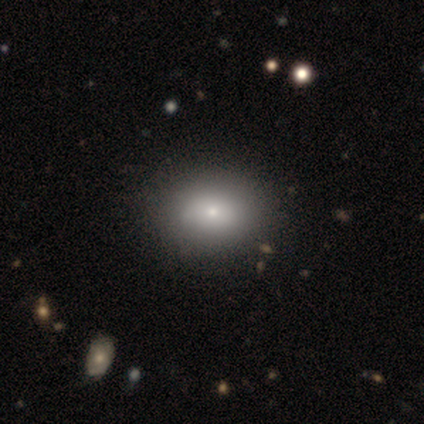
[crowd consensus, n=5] Q: Smooth or featured?
A: smooth (80%); runner-up: featured or disk (20%)
Q: How rounded?
A: in between (75%); runner-up: round (25%)
Q: Merging?
A: none (80%); runner-up: minor disturbance (20%)